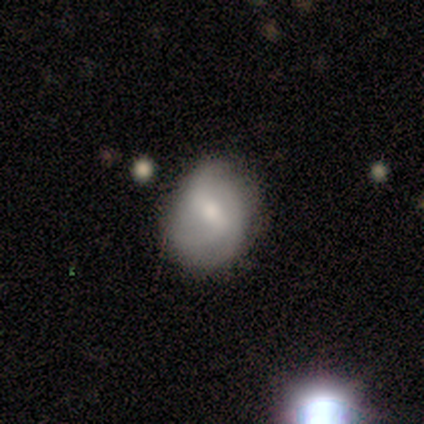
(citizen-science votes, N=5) smooth_or_featured: smooth (p=0.80) [alt: featured or disk p=0.20]
how_rounded: round (p=0.50) [tied with: in between p=0.50]
merging: minor disturbance (p=0.60) [alt: none p=0.40]